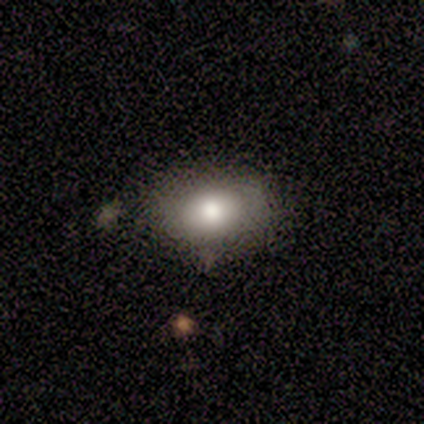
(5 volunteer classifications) smooth 100%, featured or disk 0%, star or artifact 0%. Down the decision tree: how rounded — in between (60%); merging — none (80%).